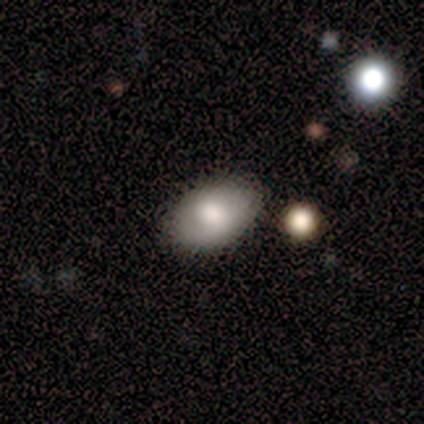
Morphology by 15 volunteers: A smooth galaxy with no disk features (67%) that is in between round and cigar-shaped (90%).

Vote fractions:
- Smooth or featured? smooth: 67% / featured or disk: 27% / star or artifact: 7%
- How rounded? in between: 90% / round: 10% / cigar-shaped: 0%
- Merging? none: 93% / minor disturbance: 7% / major disturbance: 0% / merger: 0%